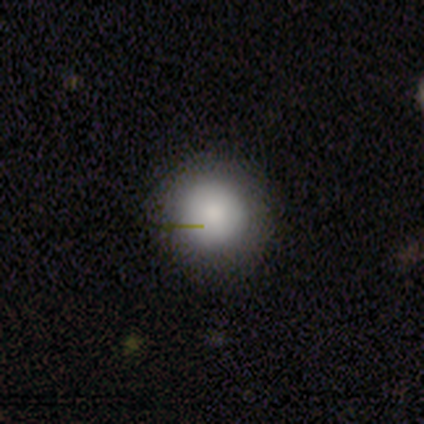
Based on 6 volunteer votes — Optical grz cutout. It shows a smooth galaxy with no disk features (50%, tied with star or artifact) that is round (100%). Merging: none (100%).